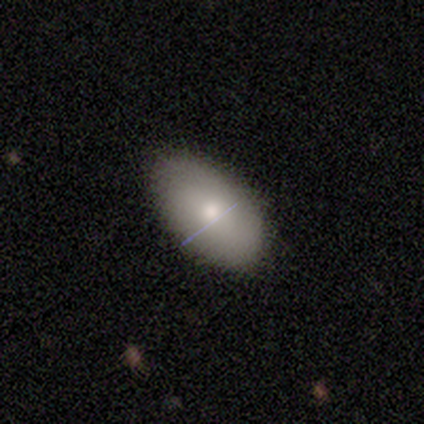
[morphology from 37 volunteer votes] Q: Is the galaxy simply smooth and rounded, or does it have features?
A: smooth — 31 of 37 (84%).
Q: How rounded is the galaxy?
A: in between — 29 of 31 (94%).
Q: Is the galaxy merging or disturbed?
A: none — 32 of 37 (86%).